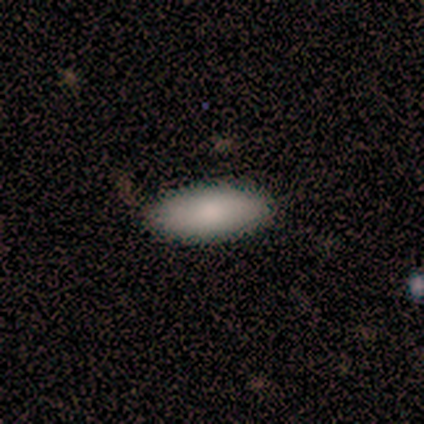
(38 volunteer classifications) This is clearly a smooth galaxy (82%). How rounded: likely in between (71%). Merging: clearly none (97%).